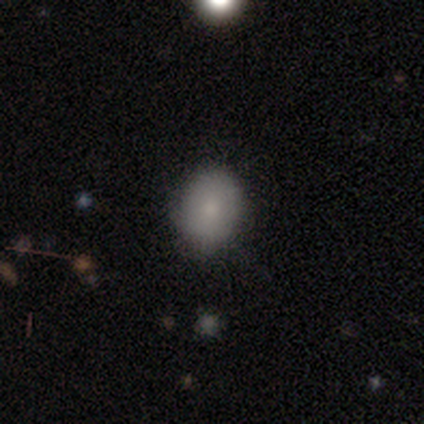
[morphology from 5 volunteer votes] type=smooth (80%); roundness=round (50%, tied with in between); merging=none (100%).